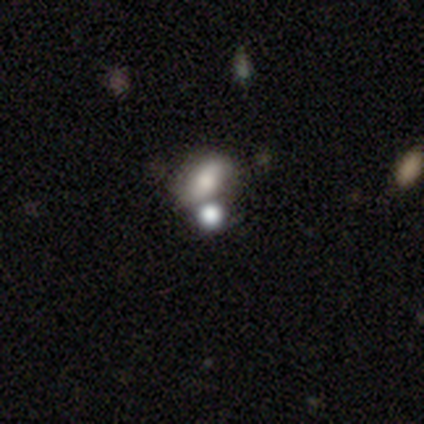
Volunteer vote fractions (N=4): Smooth or featured? smooth (50%)
How rounded? in between (100%)
Merging? merger (67%)